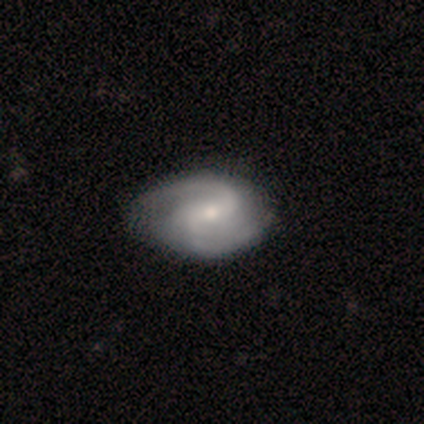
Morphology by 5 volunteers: featured or disk 80%, smooth 20%, star or artifact 0%. Down the decision tree: edge-on disk — no (100%); bar — weak (75%); spiral arms — yes (100%); spiral arm count — 2 (100%); spiral winding — medium (100%); bulge size — small (50%); merging — none (80%).